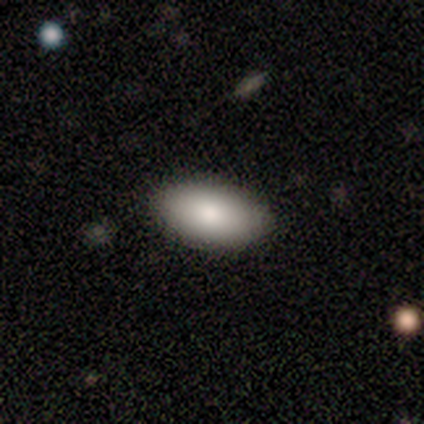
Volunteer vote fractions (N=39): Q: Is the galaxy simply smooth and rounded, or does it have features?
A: smooth — 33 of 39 (85%).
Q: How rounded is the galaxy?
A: in between — 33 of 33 (100%).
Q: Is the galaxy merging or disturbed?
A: none — 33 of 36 (92%).